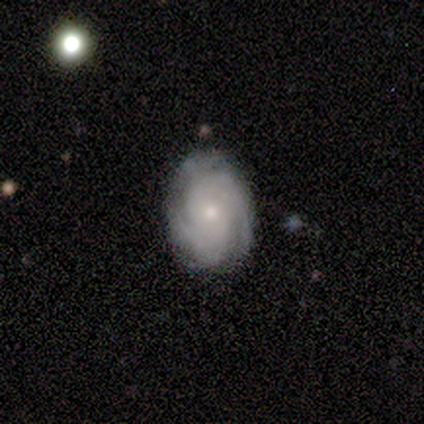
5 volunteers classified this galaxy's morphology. This is clearly a featured or disk galaxy (100%). It is clearly not viewed edge-on (100%). Bar: clearly no (100%). Spiral arm pattern: clearly yes (100%). Spiral arm count: likely 2 (60%). Spiral winding: clearly tight (80%). Central bulge: likely small (60%). Merging: likely minor disturbance (60%).